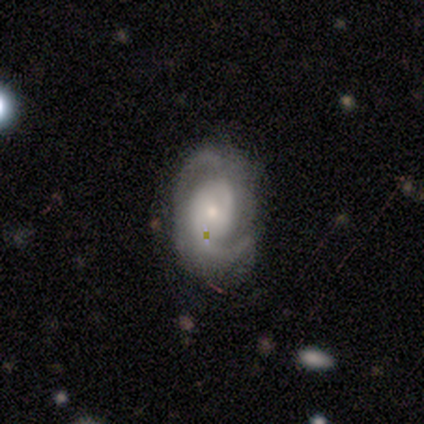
Overall: featured or disk (100%). Edge-on disk: no (100%). Bar: weak (60%; no 40%). Spiral arms: yes (100%). Spiral arm count: 2 (100%). Spiral winding: medium (80%). Bulge size: small (60%; moderate 40%). Merging: none (80%).